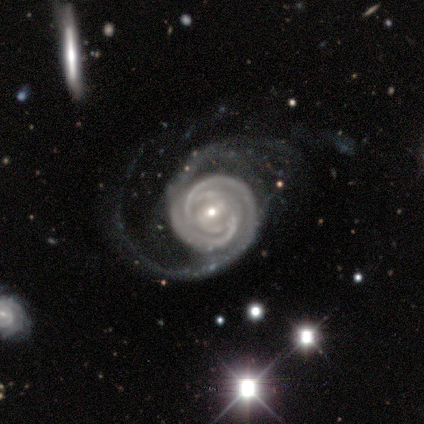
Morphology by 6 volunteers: type=featured or disk (100%); edge-on=no (100%); bar=strong (33%, tied with weak and no); spiral arms=yes (100%); winding=tight (83%); arm count=2 (67%); bulge=small (83%); merging=major disturbance (50%).